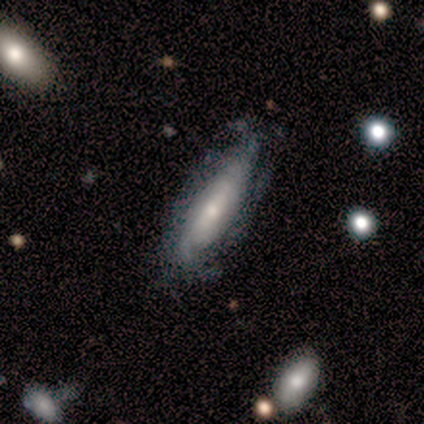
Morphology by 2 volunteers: This appears to be a featured or disk galaxy (100%) viewed edge-on (100%) with no central bulge (50%, tied with rounded). Merging: none (100%).